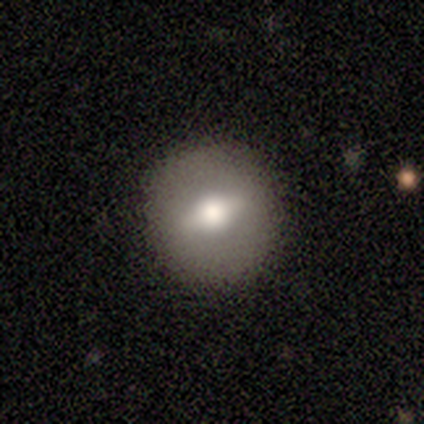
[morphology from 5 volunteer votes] Smooth or featured? 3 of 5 (60%) said featured or disk. Edge-on disk? 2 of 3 (67%) said no. Bar? 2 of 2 (100%) said strong. Spiral arms? 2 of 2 (100%) said no. Bulge size? 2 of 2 (100%) said moderate. Merging? 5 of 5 (100%) said none.